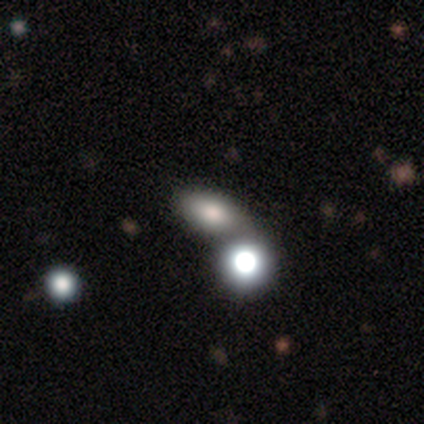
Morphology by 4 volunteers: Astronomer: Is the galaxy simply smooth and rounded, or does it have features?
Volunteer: smooth — 50%.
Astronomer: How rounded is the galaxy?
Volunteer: round — 50%, tied with in between at 50%.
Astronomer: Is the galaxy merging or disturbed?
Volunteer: none — 67%.